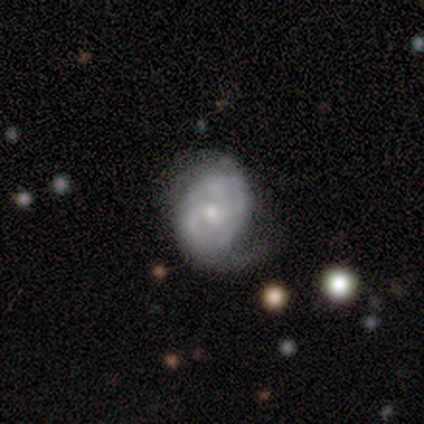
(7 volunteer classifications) A featured or disk galaxy (86%) with no bar (67%), 2 (50%) tight (50%) spiral arms (100%) and a moderate central bulge (33%, tied with small).

Vote fractions:
- Smooth or featured? featured or disk: 86% / smooth: 14% / star or artifact: 0%
- Edge-on disk? no: 100% / yes: 0%
- Bar? no: 67% / weak: 33% / strong: 0%
- Spiral arms? yes: 100% / no: 0%
- Spiral winding? tight: 50% / medium: 33% / loose: 17%
- Spiral arm count? 2: 50% / 3: 33% / can't tell: 17% / 1: 0% / 4: 0% / more than 4: 0%
- Bulge size? moderate: 33% (tied) / small: 33% (tied) / large: 17% / none: 17% / dominant: 0%
- Merging? minor disturbance: 57% / none: 29% / merger: 14% / major disturbance: 0%